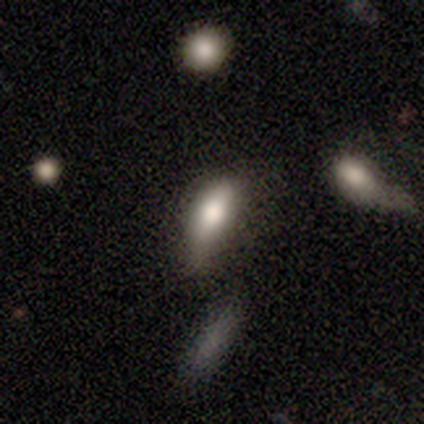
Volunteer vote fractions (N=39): A smooth galaxy with no disk features (74%) that is in between round and cigar-shaped (69%). Merging: minor disturbance (52%).